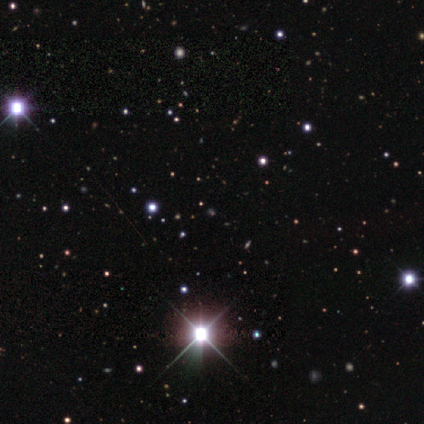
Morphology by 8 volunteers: smooth_or_featured: star or artifact (p=0.75) [alt: smooth p=0.25]